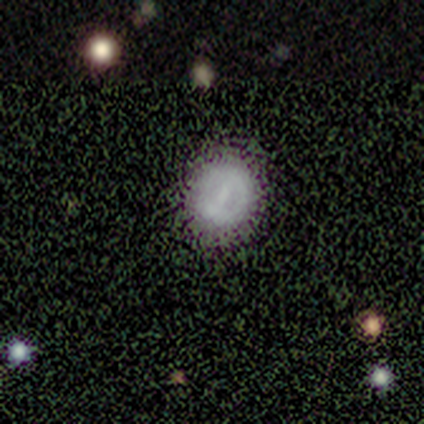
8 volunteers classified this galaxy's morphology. type=smooth (100%); roundness=round (88%); merging=none (75%).